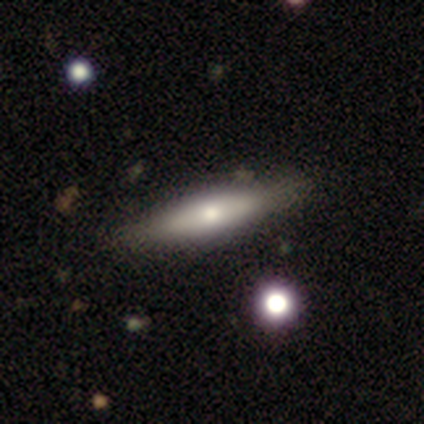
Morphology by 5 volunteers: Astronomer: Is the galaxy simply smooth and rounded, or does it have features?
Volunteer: smooth — 40%, tied with star or artifact at 40%.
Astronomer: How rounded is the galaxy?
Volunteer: in between — 50%, tied with cigar-shaped at 50%.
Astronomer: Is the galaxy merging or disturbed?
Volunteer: none — 100%.